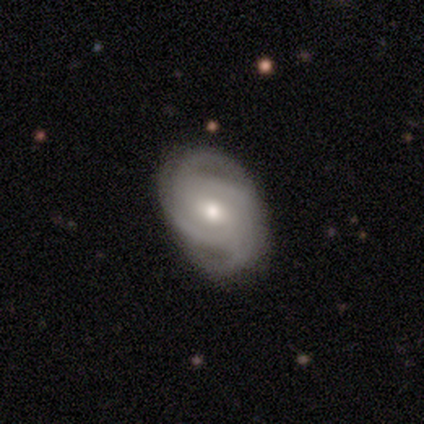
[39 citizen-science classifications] Morphology: type=featured or disk (77%); edge-on=no (100%); bar=weak (47%, tied with no); spiral arms=yes (97%); winding=tight (52%); arm count=2 (34%); bulge=moderate (60%); merging=none (84%).